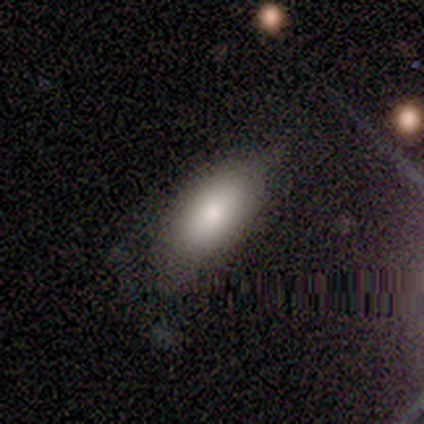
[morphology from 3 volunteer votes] This is clearly a smooth galaxy (100%). How rounded: clearly in between (100%). Merging: likely none (67%).